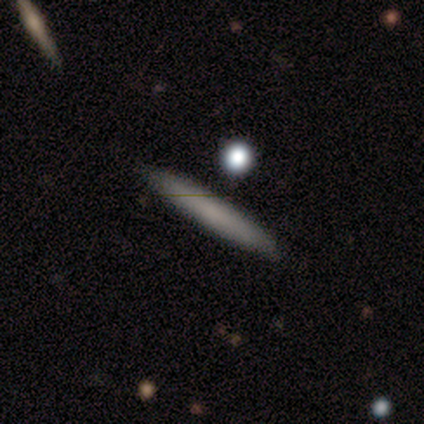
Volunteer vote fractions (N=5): smooth-or-featured: smooth: 100% | featured or disk: 0% | star or artifact: 0%
  how-rounded: cigar-shaped: 80% | round: 20% | in between: 0%
  merging: none: 100% | minor disturbance: 0% | major disturbance: 0% | merger: 0%